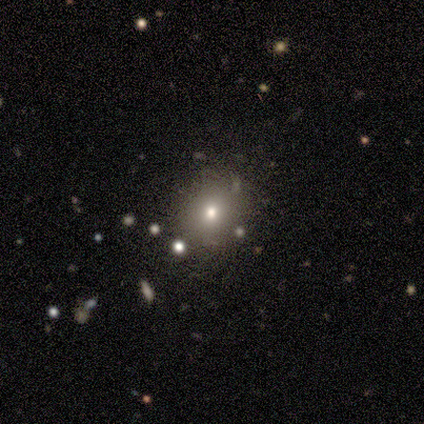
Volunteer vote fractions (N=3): Q: Smooth or featured?
A: smooth (33%); tied with: featured or disk (33%); star or artifact (33%)
Q: How rounded?
A: round (100%)
Q: Merging?
A: none (100%)